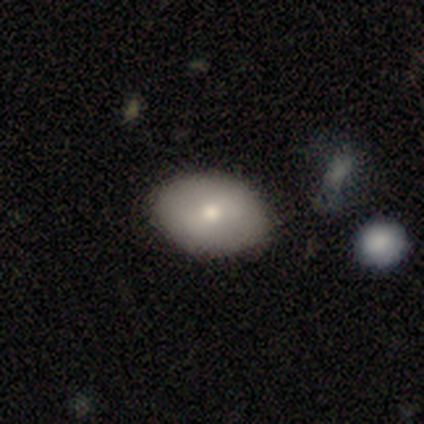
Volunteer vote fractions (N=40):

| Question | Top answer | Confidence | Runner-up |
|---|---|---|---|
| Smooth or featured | smooth | 75% | featured or disk (20%) |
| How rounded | in between | 87% | round (13%) |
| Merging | none | 66% | minor disturbance (8%) |